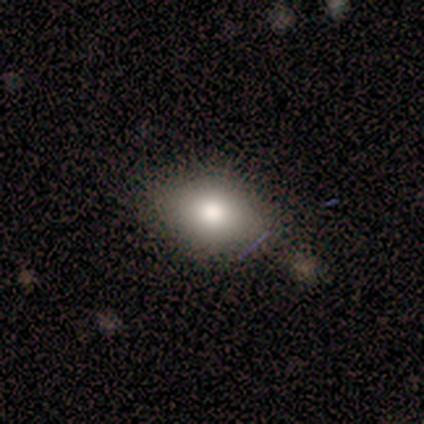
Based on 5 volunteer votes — smooth-or-featured: smooth: 80% | featured or disk: 20% | star or artifact: 0%
  how-rounded: in between: 75% | round: 25% | cigar-shaped: 0%
  merging: none: 60% | minor disturbance: 20% | merger: 20% | major disturbance: 0%